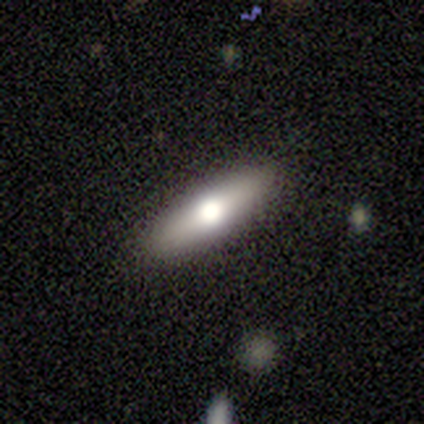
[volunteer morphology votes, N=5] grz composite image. It shows a smooth galaxy with no disk features (80%) that is cigar-shaped (75%). Merging: none (100%).